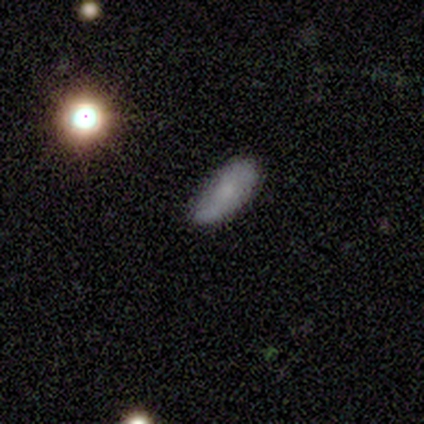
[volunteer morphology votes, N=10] Smooth or featured?
  - smooth: 50% *
  - featured or disk: 40%
  - star or artifact: 10%
How rounded?
  - in between: 100% *
  - round: 0%
  - cigar-shaped: 0%
Merging?
  - none: 56% *
  - minor disturbance: 33%
  - major disturbance: 11%
  - merger: 0%